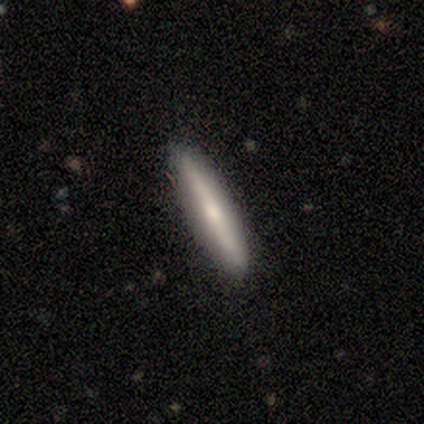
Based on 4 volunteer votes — This is clearly a smooth galaxy (100%). How rounded: clearly cigar-shaped (100%). Merging: likely none (75%).